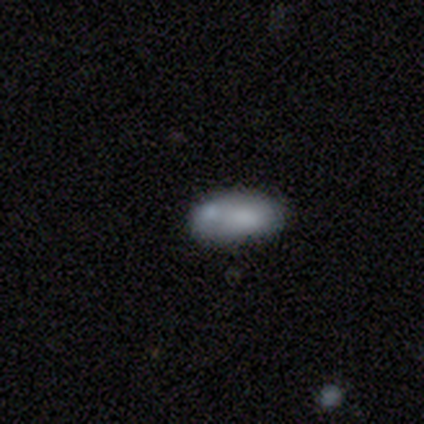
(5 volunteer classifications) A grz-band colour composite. It shows a smooth galaxy with no disk features (100%) that is in between round and cigar-shaped (100%). Merging: none (40%, tied with merger).